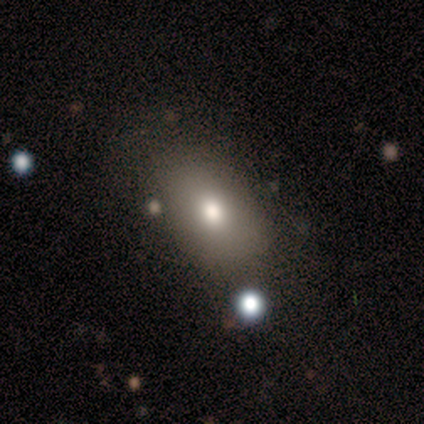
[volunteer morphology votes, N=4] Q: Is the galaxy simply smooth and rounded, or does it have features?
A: smooth — 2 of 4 (50%, tied with star or artifact).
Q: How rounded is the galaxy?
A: in between — 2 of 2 (100%).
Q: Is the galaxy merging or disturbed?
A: none — 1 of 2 (50%, tied with major disturbance).